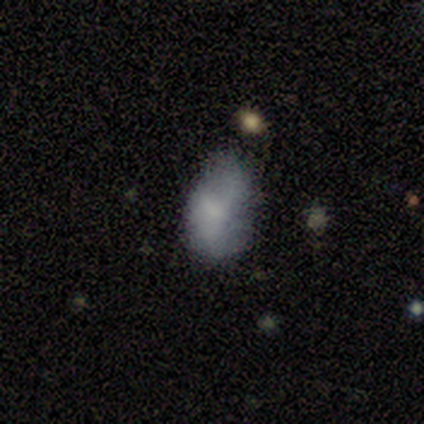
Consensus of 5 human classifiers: A smooth galaxy with no disk features (60%) that is in between round and cigar-shaped (100%). Merging: minor disturbance (67%).